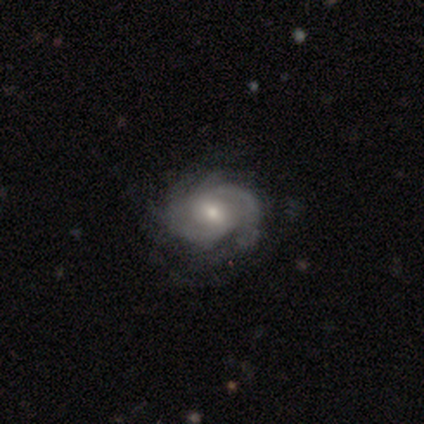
Smooth or featured?
  - featured or disk: 90% *
  - smooth: 6%
  - star or artifact: 4%
Edge-on disk?
  - no: 99% *
  - yes: 1%
Bar?
  - no: 56% *
  - weak: 37%
  - strong: 7%
Spiral arms?
  - yes: 96% *
  - no: 4%
Spiral winding?
  - tight: 60% *
  - medium: 28%
  - loose: 12%
Spiral arm count?
  - can't tell: 34% *
  - 3: 32%
  - 2: 22%
  - 4: 5%
  - more than 4: 5%
  - 1: 3%
Bulge size?
  - small: 57% *
  - moderate: 40%
  - large: 3%
  - dominant: 0%
  - none: 0%
Merging?
  - none: 36% *
  - minor disturbance: 14%
  - major disturbance: 5%
  - merger: 1%